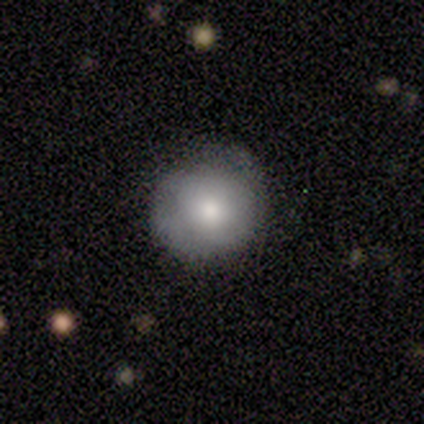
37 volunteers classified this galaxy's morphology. Smooth or featured?
  - smooth: 73% *
  - featured or disk: 24%
  - star or artifact: 3%
How rounded?
  - round: 89% *
  - in between: 11%
  - cigar-shaped: 0%
Merging?
  - none: 69% *
  - minor disturbance: 28%
  - major disturbance: 3%
  - merger: 0%